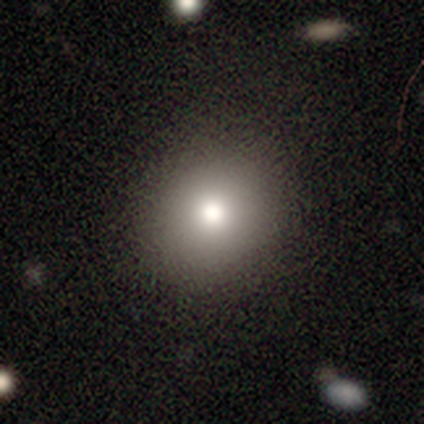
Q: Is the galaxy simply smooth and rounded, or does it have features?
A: smooth — 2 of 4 (50%).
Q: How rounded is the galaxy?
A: round — 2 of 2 (100%).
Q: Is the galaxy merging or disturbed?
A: none — 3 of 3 (100%).